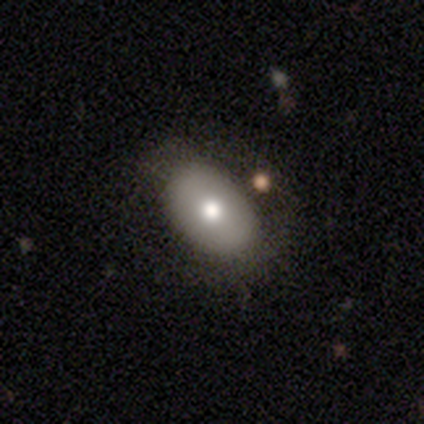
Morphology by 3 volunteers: Volunteers were most divided on "bulge size" (2-way tie): large: 50%, moderate: 50%, dominant: 0%, small: 0%, none: 0%. More confident: smooth or featured — featured or disk (100%); bar — no (100%); spiral arms — no (100%); merging — none (100%); edge-on disk — no (67%).